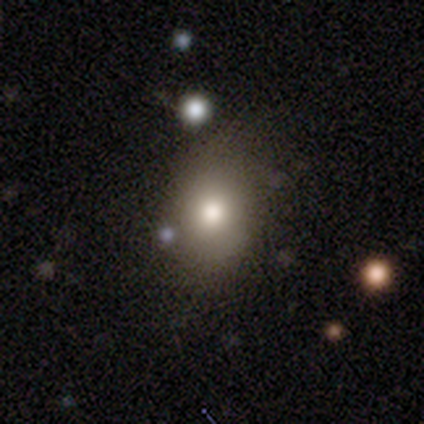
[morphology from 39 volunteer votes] This appears to be a smooth galaxy with no disk features (82%) that is in between round and cigar-shaped (59%). Merging: none (62%).